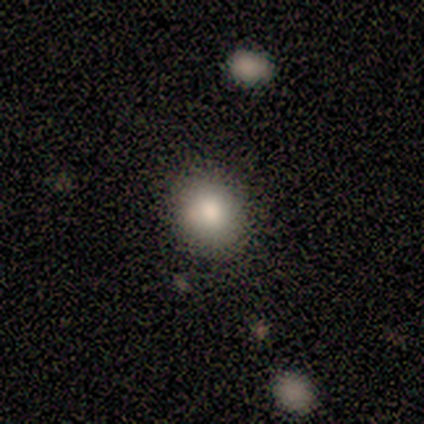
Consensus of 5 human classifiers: smooth-or-featured: smooth: 100% | featured or disk: 0% | star or artifact: 0%
  how-rounded: in between: 60% | round: 40% | cigar-shaped: 0%
  merging: none: 100% | minor disturbance: 0% | major disturbance: 0% | merger: 0%